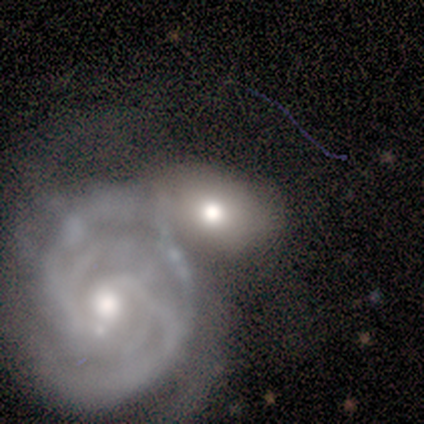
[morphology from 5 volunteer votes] Smooth or featured: featured or disk — 60% (smooth — 40%)
Edge-on disk: no — 100%
Bar: strong — 67% (no — 33%)
Spiral arms: yes — 100%
Spiral winding: tight — 67% (medium — 33%)
Spiral arm count: 4 — 33% (tied with more than 4 — 33%; can't tell — 33%)
Bulge size: moderate — 67% (small — 33%)
Merging: merger — 40% (none — 20%)